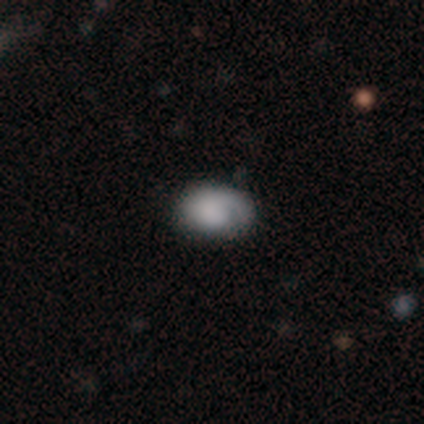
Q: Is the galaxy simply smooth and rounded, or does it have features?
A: smooth — 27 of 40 (68%).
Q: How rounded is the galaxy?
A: in between — 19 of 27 (70%).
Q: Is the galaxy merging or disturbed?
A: none — 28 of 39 (72%).